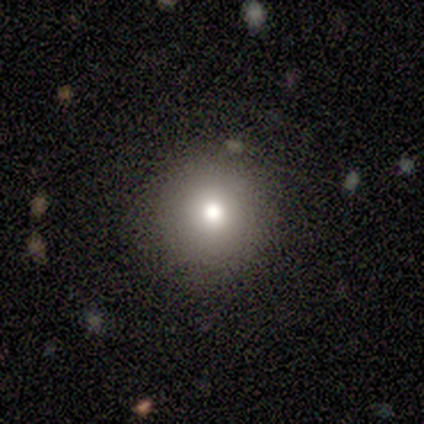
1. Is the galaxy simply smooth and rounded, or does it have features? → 80% smooth, 20% star or artifact, 0% featured or disk.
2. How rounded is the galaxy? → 100% round, 0% in between, 0% cigar-shaped.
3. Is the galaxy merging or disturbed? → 50% none (tied), 50% minor disturbance (tied), 0% major disturbance, 0% merger.